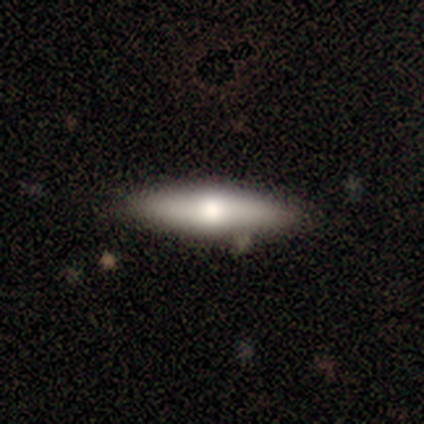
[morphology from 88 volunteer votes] This is likely a smooth galaxy (60%). How rounded: likely cigar-shaped (77%). Merging: clearly none (85%).